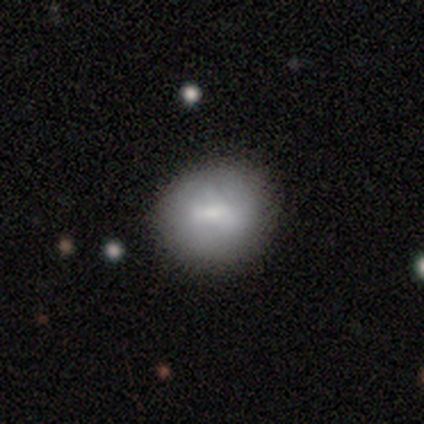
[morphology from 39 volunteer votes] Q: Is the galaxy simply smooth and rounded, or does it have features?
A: smooth — 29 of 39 (74%).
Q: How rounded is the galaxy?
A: round — 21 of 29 (72%).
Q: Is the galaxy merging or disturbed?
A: none — 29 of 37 (78%).